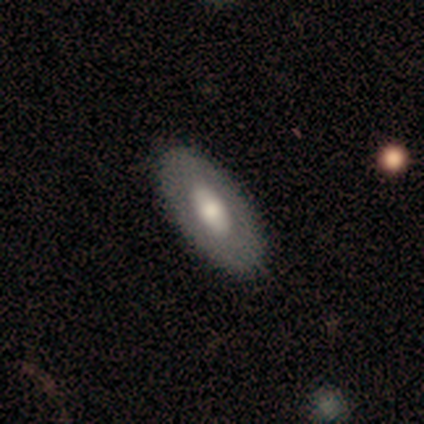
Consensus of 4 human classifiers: This appears to be a smooth galaxy with no disk features (75%) that is in between round and cigar-shaped (100%). Merging: none (100%).